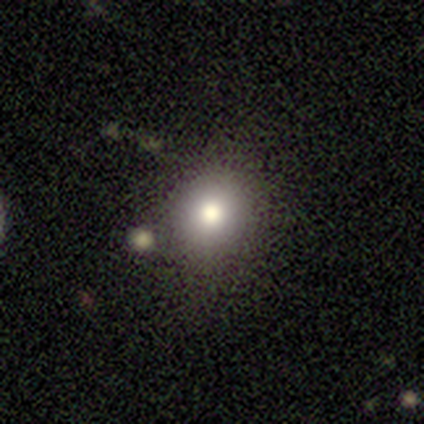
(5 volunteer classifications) Smooth or featured?
  - smooth: 60% *
  - featured or disk: 20%
  - star or artifact: 20%
How rounded?
  - round: 67% *
  - in between: 33%
  - cigar-shaped: 0%
Merging?
  - none: 100% *
  - minor disturbance: 0%
  - major disturbance: 0%
  - merger: 0%